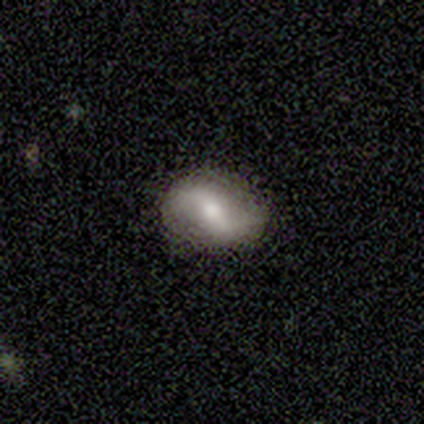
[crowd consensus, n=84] smooth-or-featured: featured or disk: 63% | smooth: 25% | star or artifact: 12%
  disk-edge-on: no: 96% | yes: 4%
    bar: weak: 39% | strong: 37% | no: 24%
    has-spiral-arms: yes: 88% | no: 12%
      spiral-winding: loose: 87% | medium: 11% | tight: 2%
      spiral-arm-count: 2: 91% | 1: 4% | 3: 2% | can't tell: 2% | 4: 0% | more than 4: 0%
    bulge-size: moderate: 61% | small: 35% | large: 4% | dominant: 0% | none: 0%
  merging: none: 88% | minor disturbance: 9% | major disturbance: 3% | merger: 0%